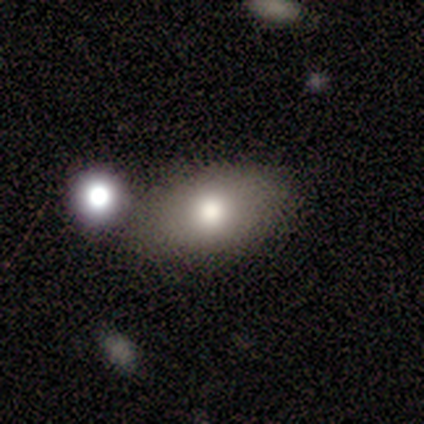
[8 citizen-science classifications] A smooth galaxy with no disk features (75%) that is in between round and cigar-shaped (100%).

Vote fractions:
- Smooth or featured? smooth: 75% / featured or disk: 12% / star or artifact: 12%
- How rounded? in between: 100% / round: 0% / cigar-shaped: 0%
- Merging? none: 71% / minor disturbance: 14% / major disturbance: 14% / merger: 0%